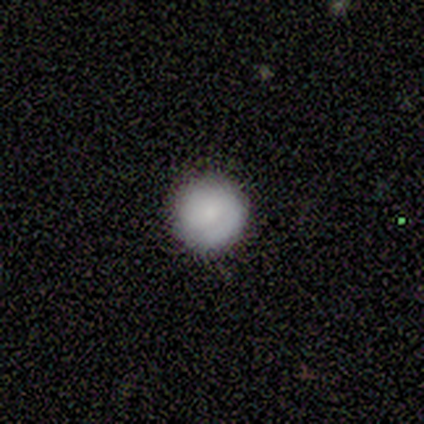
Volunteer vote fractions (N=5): Smooth or featured?
  - smooth: 80% *
  - featured or disk: 20%
  - star or artifact: 0%
How rounded?
  - round: 100% *
  - in between: 0%
  - cigar-shaped: 0%
Merging?
  - none: 80% *
  - minor disturbance: 20%
  - major disturbance: 0%
  - merger: 0%